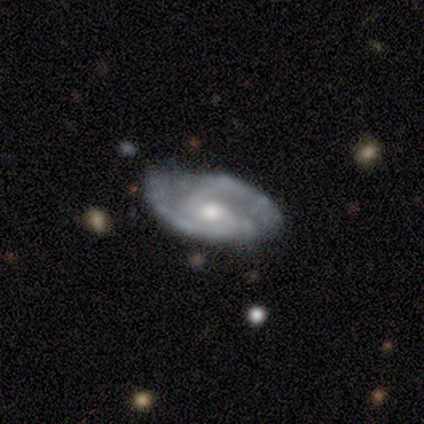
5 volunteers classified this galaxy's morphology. This is clearly a featured or disk galaxy (80%). It is clearly not viewed edge-on (100%). Bar: likely no (75%). Spiral arm pattern: clearly yes (100%). Spiral arm count: likely 2 (75%). Spiral winding: clearly medium (100%). Central bulge: likely moderate (75%). Merging: clearly none (100%).